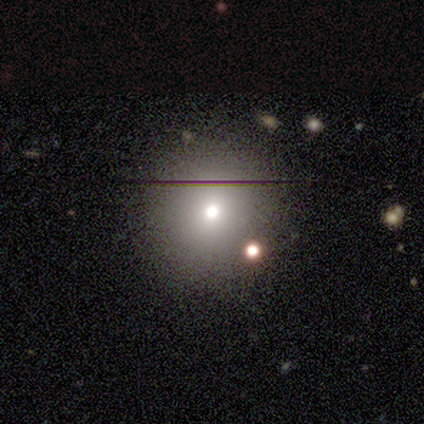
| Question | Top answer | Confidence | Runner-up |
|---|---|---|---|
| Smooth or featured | smooth | 67% | star or artifact (33%) |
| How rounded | round | 100% | — |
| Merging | none | 100% | — |